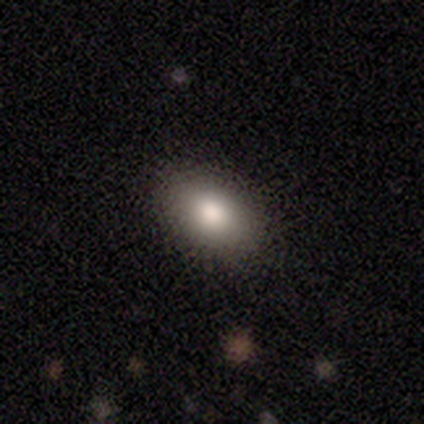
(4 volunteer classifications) A smooth galaxy with no disk features (50%) that is in between round and cigar-shaped (100%). Merging: none (100%).